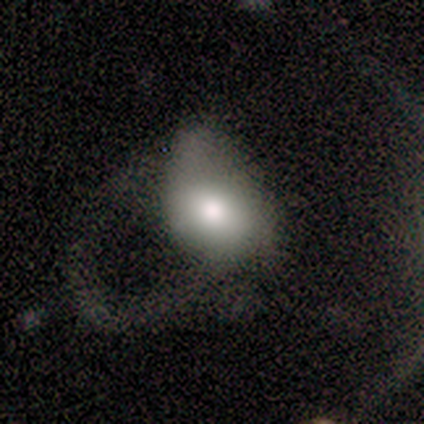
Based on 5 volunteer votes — A smooth galaxy with no disk features (80%) that is in between round and cigar-shaped (100%). Merging: major disturbance (80%).